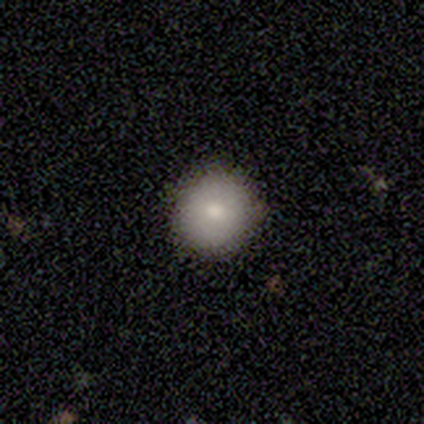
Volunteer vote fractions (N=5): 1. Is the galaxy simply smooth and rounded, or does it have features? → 100% smooth, 0% featured or disk, 0% star or artifact.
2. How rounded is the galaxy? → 100% round, 0% in between, 0% cigar-shaped.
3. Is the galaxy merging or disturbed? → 100% none, 0% minor disturbance, 0% major disturbance, 0% merger.